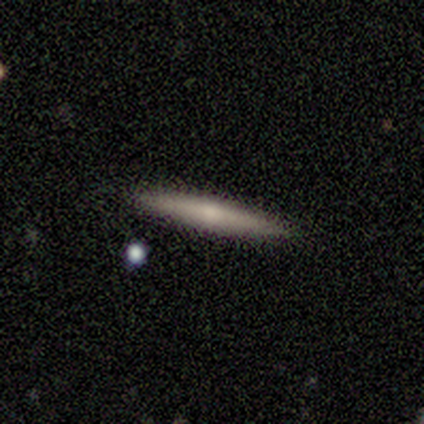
Smooth or featured?
  - smooth: 100% *
  - featured or disk: 0%
  - star or artifact: 0%
How rounded?
  - cigar-shaped: 100% *
  - round: 0%
  - in between: 0%
Merging?
  - none: 100% *
  - minor disturbance: 0%
  - major disturbance: 0%
  - merger: 0%